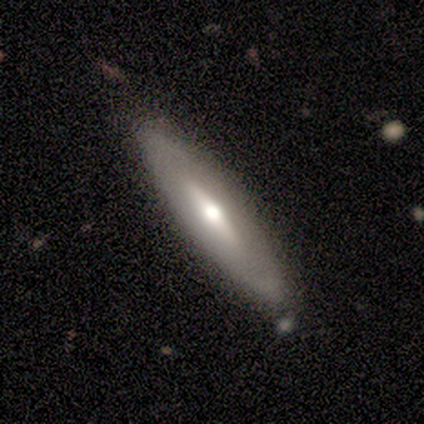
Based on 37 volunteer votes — Overall: smooth (57%; featured or disk 41%). How rounded: cigar-shaped (71%). Merging: none (83%).